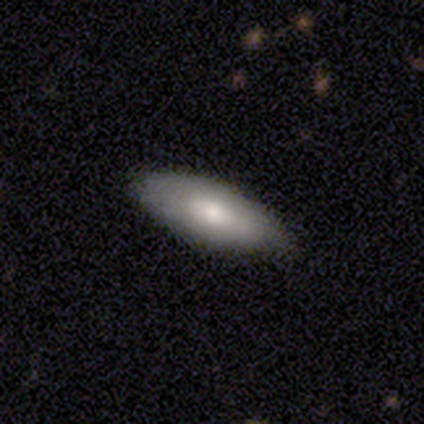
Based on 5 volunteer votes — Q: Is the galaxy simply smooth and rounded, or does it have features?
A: smooth — 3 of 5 (60%).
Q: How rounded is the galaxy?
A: in between — 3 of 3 (100%).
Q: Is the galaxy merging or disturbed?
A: none — 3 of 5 (60%).